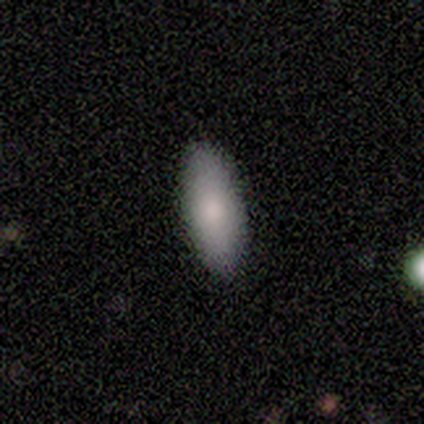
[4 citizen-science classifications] smooth-or-featured: smooth: 75% | star or artifact: 25% | featured or disk: 0%
  how-rounded: in between: 100% | round: 0% | cigar-shaped: 0%
  merging: none: 100% | minor disturbance: 0% | major disturbance: 0% | merger: 0%